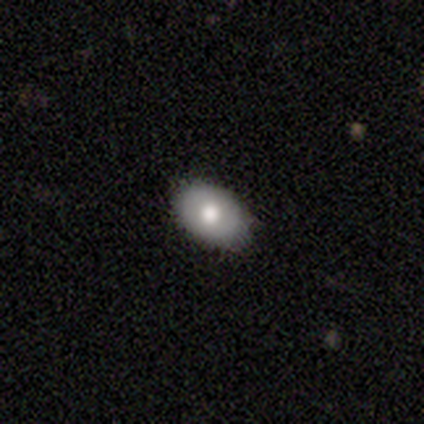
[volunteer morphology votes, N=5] Overall: smooth (60%; featured or disk 40%). How rounded: in between (67%; round 33%). Merging: none (60%; minor disturbance 40%).